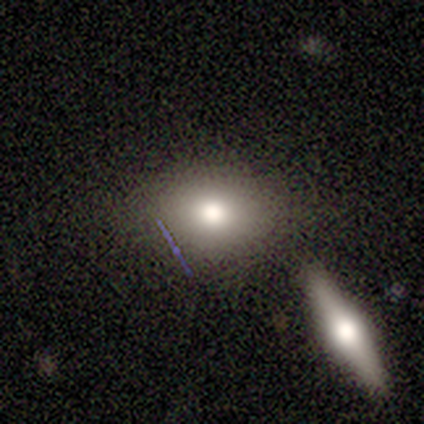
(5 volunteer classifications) This appears to be a smooth galaxy with no disk features (60%) that is round (67%). Merging: none (60%).